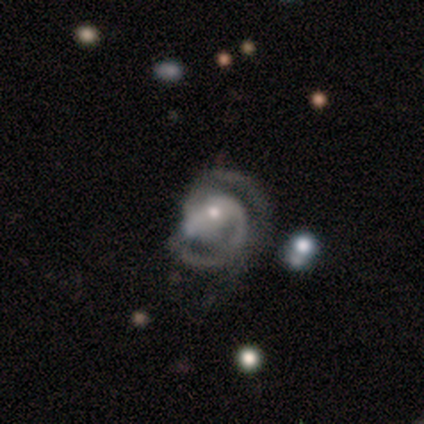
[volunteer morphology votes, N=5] smooth_or_featured: featured or disk (p=0.80) [alt: star or artifact p=0.20]
disk_edge_on: no (p=1.00)
bar: weak (p=0.50) [alt: strong p=0.25]
has_spiral_arms: yes (p=1.00)
spiral_winding: medium (p=0.75) [alt: tight p=0.25]
spiral_arm_count: 2 (p=0.75) [alt: 3 p=0.25]
bulge_size: small (p=0.75) [alt: moderate p=0.25]
merging: none (p=0.75) [alt: minor disturbance p=0.25]